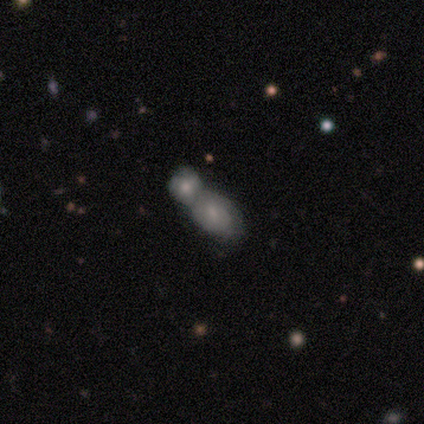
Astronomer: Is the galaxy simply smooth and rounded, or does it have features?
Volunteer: smooth — 48% (runner-up: featured or disk, 40%).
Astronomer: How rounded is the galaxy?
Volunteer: in between — 79%.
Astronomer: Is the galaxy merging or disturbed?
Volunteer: merger — 79%.